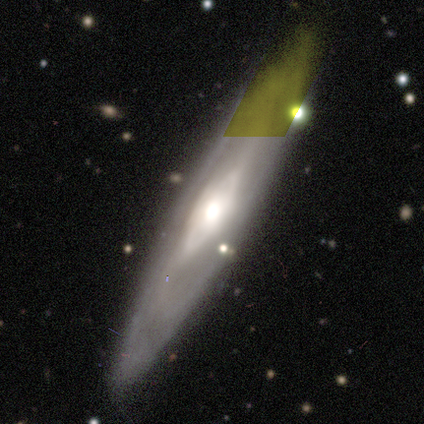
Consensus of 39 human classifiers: Q: Smooth or featured?
A: featured or disk (72%); runner-up: star or artifact (18%)
Q: Edge-on disk?
A: yes (50%); tied with: no (50%)
Q: Edge-on bulge?
A: rounded (79%); runner-up: none (21%)
Q: Merging?
A: none (72%); runner-up: merger (12%)